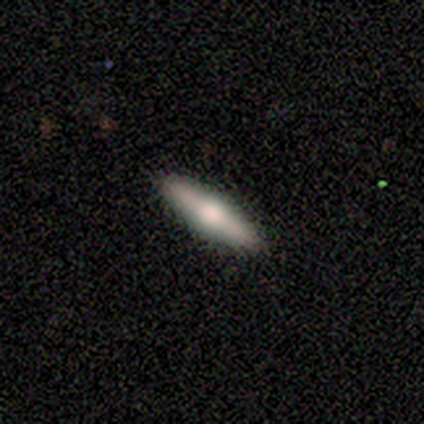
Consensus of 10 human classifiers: This is likely a featured or disk galaxy (60%). It is clearly viewed edge-on (100%). Edge-on bulge: clearly rounded (100%). Merging: clearly none (90%).